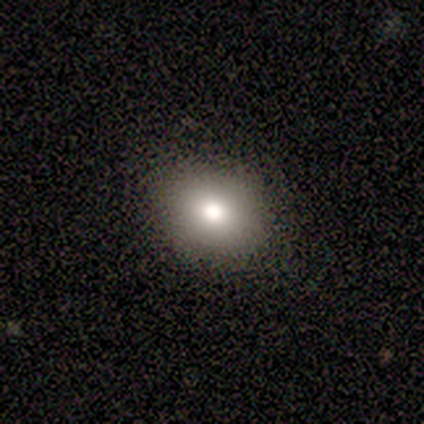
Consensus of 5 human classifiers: A smooth galaxy with no disk features (80%) that is round (50%, tied with in between). Merging: none (100%).